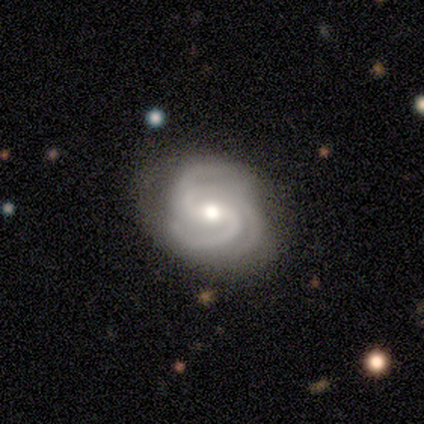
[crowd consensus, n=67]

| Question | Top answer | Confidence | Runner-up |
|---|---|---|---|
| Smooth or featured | featured or disk | 91% | star or artifact (6%) |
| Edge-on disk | no | 95% | yes (5%) |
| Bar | weak | 47% | no (40%) |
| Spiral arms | yes | 100% | — |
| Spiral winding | medium | 52% | tight (38%) |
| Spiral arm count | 3 | 48% | 2 (26%) |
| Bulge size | moderate | 69% | small (14%) |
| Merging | none | 48% | minor disturbance (17%) |